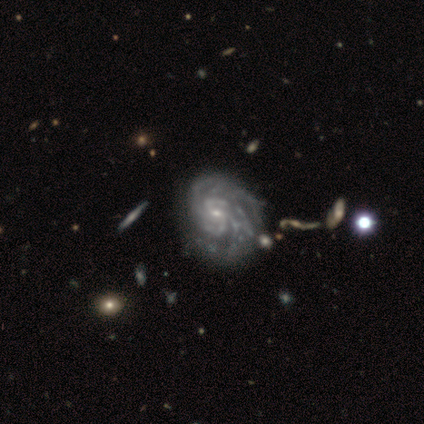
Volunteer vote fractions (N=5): Smooth or featured? featured or disk (100%)
Edge-on disk? no (100%)
Bar? no (60%)
Spiral arms? yes (100%)
Spiral winding? medium (60%)
Spiral arm count? can't tell (40%)
Bulge size? small (60%)
Merging? minor disturbance (80%)